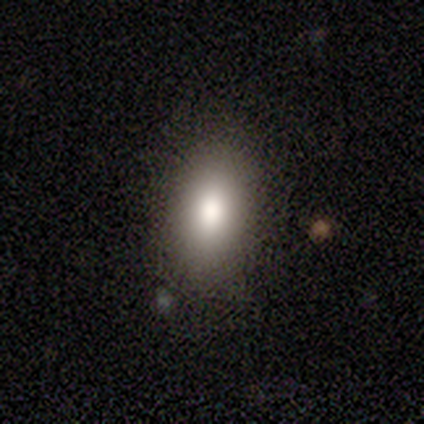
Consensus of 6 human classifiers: A smooth galaxy with no disk features (100%) that is in between round and cigar-shaped (67%).

Vote fractions:
- Smooth or featured? smooth: 100% / featured or disk: 0% / star or artifact: 0%
- How rounded? in between: 67% / round: 33% / cigar-shaped: 0%
- Merging? none: 100% / minor disturbance: 0% / major disturbance: 0% / merger: 0%